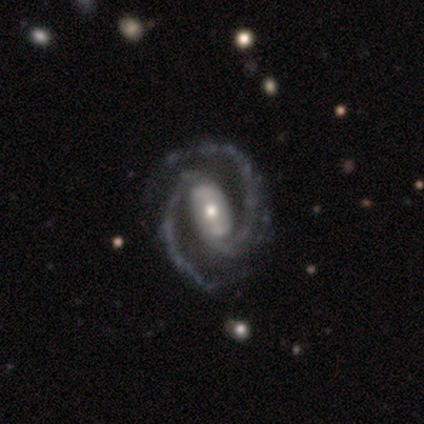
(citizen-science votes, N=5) Overall: featured or disk (100%). Edge-on disk: no (100%). Bar: weak (40%, tied with no). Spiral arms: yes (100%). Spiral arm count: 2 (100%). Spiral winding: medium (60%; tight 20%). Bulge size: small (80%). Merging: none (100%).